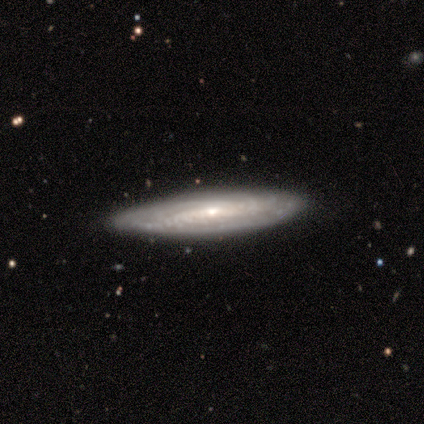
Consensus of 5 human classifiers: star or artifact 60%, featured or disk 40%, smooth 0%.